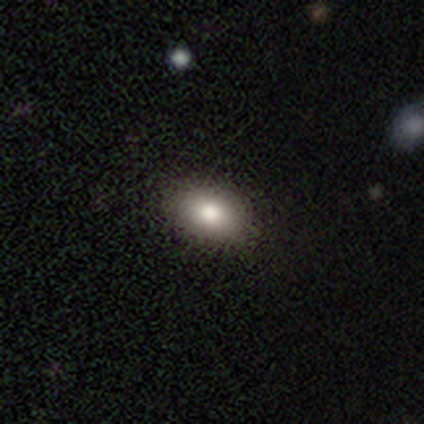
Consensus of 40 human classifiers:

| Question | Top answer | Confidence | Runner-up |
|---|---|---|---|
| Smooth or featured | smooth | 80% | featured or disk (15%) |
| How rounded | in between | 91% | round (9%) |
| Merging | none | 76% | minor disturbance (5%) |